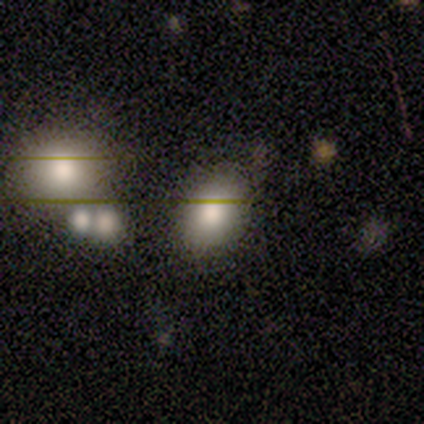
Q: Smooth or featured?
A: smooth (60%); runner-up: star or artifact (40%)
Q: How rounded?
A: in between (100%)
Q: Merging?
A: none (67%); runner-up: minor disturbance (33%)